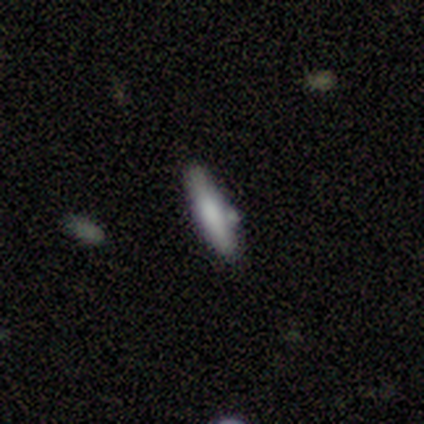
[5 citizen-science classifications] Smooth or featured: smooth — 40% (tied with featured or disk — 40%)
How rounded: cigar-shaped — 100%
Merging: none — 100%